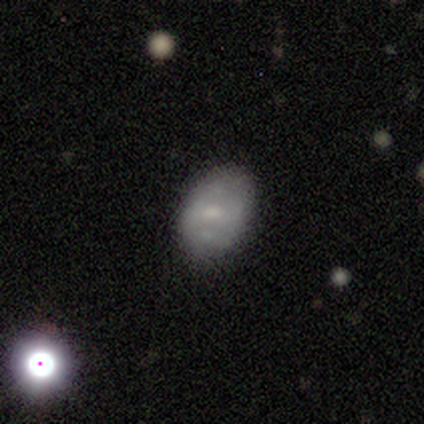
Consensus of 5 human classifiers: A smooth galaxy with no disk features (60%) that is in between round and cigar-shaped (100%).

Vote fractions:
- Smooth or featured? smooth: 60% / featured or disk: 20% / star or artifact: 20%
- How rounded? in between: 100% / round: 0% / cigar-shaped: 0%
- Merging? none: 75% / merger: 25% / minor disturbance: 0% / major disturbance: 0%